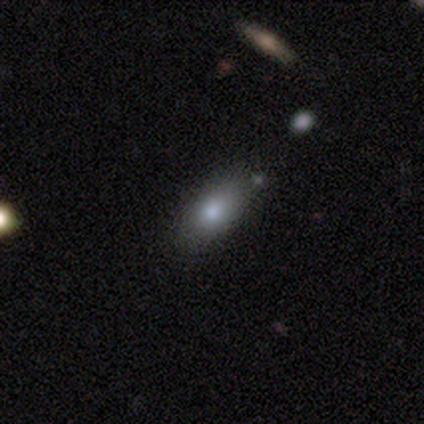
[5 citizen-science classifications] Overall: smooth (100%). How rounded: in between (80%). Merging: minor disturbance (60%; none 40%).